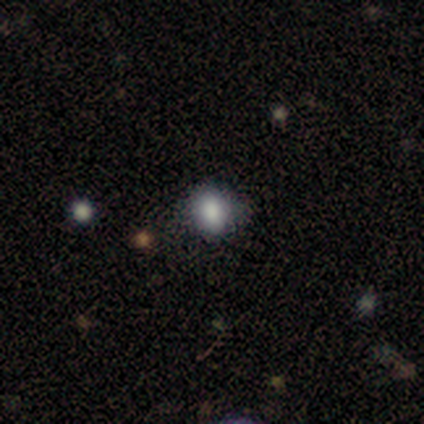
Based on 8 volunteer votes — Overall: smooth (88%). How rounded: in between (71%). Merging: none (88%).